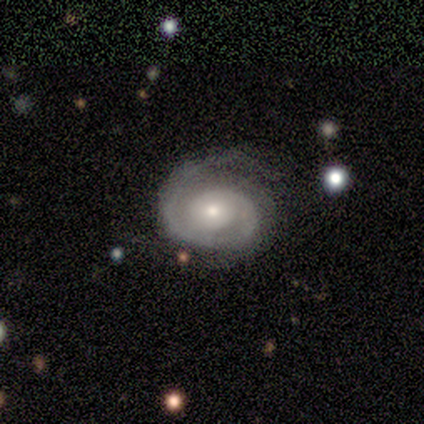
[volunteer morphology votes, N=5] This appears to be a featured or disk galaxy (100%) with no bar (100%), 1 (100%) tight (80%) spiral arms (100%) and a moderate central bulge (60%). Merging: none (60%).